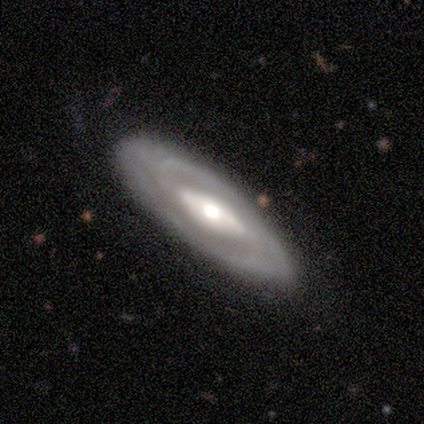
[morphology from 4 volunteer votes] This is likely a featured or disk galaxy (75%). It is clearly not viewed edge-on (100%). Bar: likely strong (67%). Spiral arm pattern: clearly yes (100%). Spiral arm count: likely 2 (67%). Spiral winding: likely tight (67%). Central bulge: clearly moderate (100%). Merging: likely none (75%).